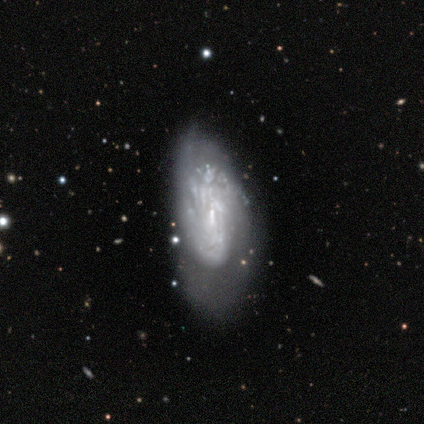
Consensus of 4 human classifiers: smooth-or-featured: featured or disk: 75% | smooth: 25% | star or artifact: 0%
  disk-edge-on: no: 100% | yes: 0%
    bar: weak: 67% | no: 33% | strong: 0%
    has-spiral-arms: no: 67% | yes: 33%
    bulge-size: small: 67% | none: 33% | dominant: 0% | large: 0% | moderate: 0%
  merging: major disturbance: 50% | none: 25% | minor disturbance: 25% | merger: 0%